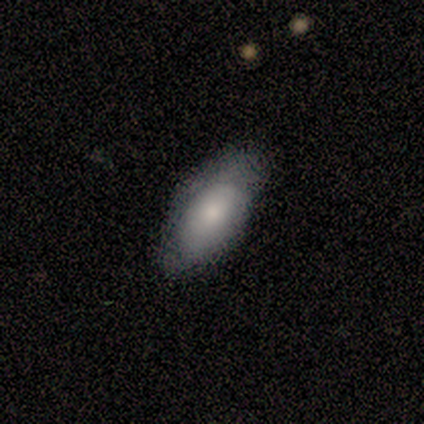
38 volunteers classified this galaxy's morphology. smooth-or-featured: smooth: 68% | featured or disk: 26% | star or artifact: 5%
  how-rounded: in between: 92% | cigar-shaped: 8% | round: 0%
  merging: none: 67% | minor disturbance: 28% | major disturbance: 6% | merger: 0%